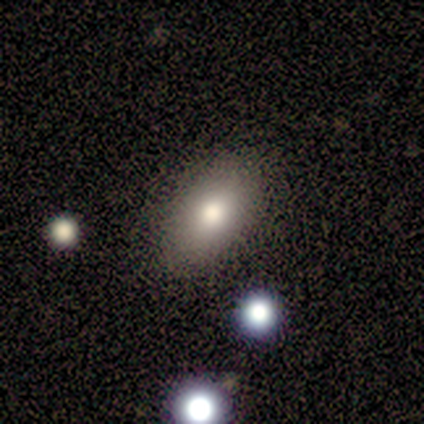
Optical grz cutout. It shows a smooth galaxy with no disk features (100%) that is in between round and cigar-shaped (100%). Merging: none (100%).